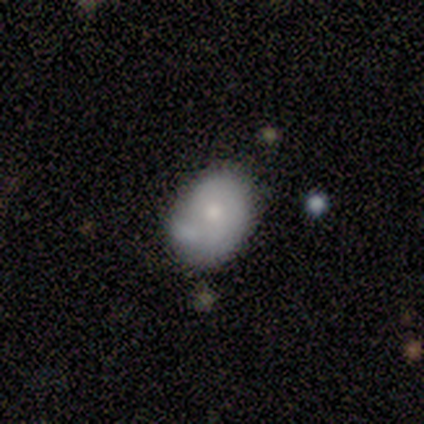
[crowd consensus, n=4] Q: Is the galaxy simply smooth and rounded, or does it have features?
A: smooth — 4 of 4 (100%).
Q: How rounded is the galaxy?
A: in between — 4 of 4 (100%).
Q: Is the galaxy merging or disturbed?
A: none — 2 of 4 (50%, tied with minor disturbance).